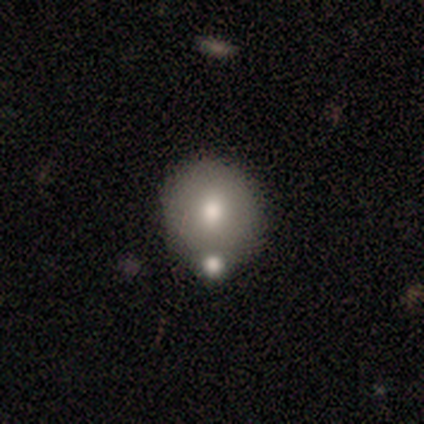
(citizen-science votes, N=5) Overall: smooth (60%; featured or disk 40%). How rounded: round (100%). Merging: none (60%; minor disturbance 40%).